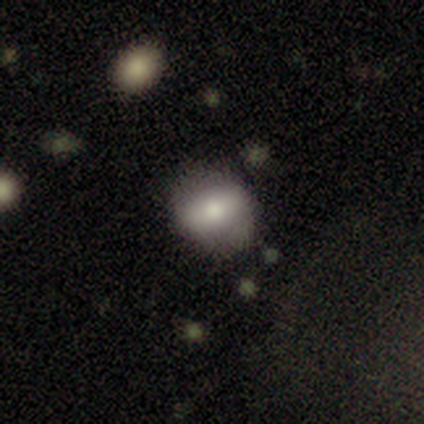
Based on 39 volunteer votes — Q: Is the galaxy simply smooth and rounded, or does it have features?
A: smooth — 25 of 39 (64%).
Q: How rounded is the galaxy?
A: round — 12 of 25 (48%).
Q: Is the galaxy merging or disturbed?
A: none — 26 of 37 (70%).